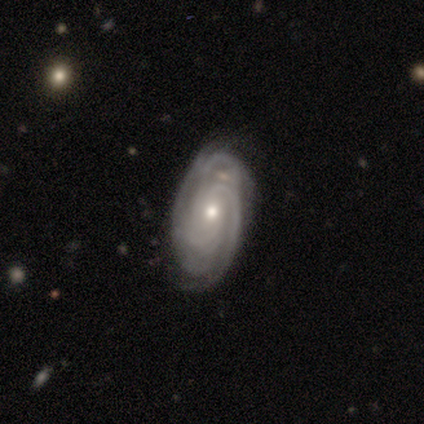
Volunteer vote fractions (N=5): smooth_or_featured: featured or disk (p=1.00)
disk_edge_on: no (p=1.00)
bar: strong (p=0.40) [tied with: no p=0.40]
has_spiral_arms: yes (p=1.00)
spiral_winding: tight (p=1.00)
spiral_arm_count: 3 (p=0.40) [alt: 2 p=0.20]
bulge_size: moderate (p=1.00)
merging: none (p=1.00)